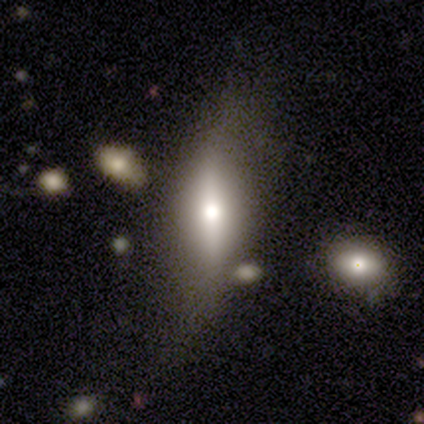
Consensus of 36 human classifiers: smooth-or-featured: featured or disk: 50% | smooth: 42% | star or artifact: 8%
  disk-edge-on: yes: 89% | no: 11%
    edge-on-bulge: rounded: 94% | boxy: 6% | none: 0%
  merging: none: 55% | minor disturbance: 33% | major disturbance: 6% | merger: 6%